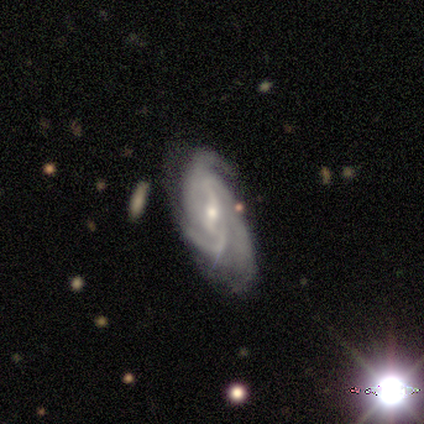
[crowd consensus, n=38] Smooth or featured: featured or disk — 82% (smooth — 11%)
Edge-on disk: no — 84% (yes — 16%)
Bar: weak — 77% (no — 15%)
Spiral arms: yes — 96% (no — 4%)
Spiral winding: medium — 60% (tight — 24%)
Spiral arm count: 3 — 52% (2 — 24%)
Bulge size: small — 69% (moderate — 31%)
Merging: none — 60% (minor disturbance — 20%)